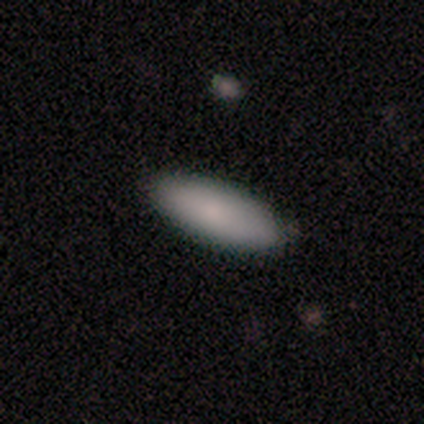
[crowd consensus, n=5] Overall: smooth (100%). How rounded: in between (60%; cigar-shaped 40%). Merging: none (100%).